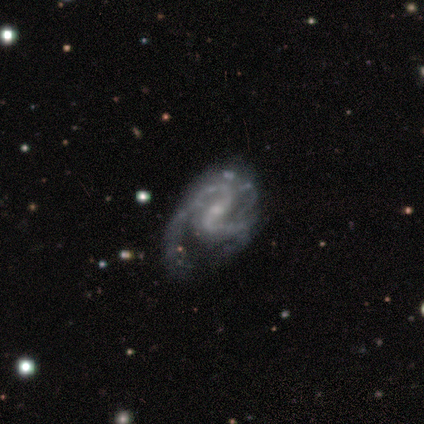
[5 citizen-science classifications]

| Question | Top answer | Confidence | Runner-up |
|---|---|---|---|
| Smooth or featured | featured or disk | 80% | smooth (20%) |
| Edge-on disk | no | 100% | — |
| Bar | strong | 50% | weak (25%) |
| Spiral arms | yes | 100% | — |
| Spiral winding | medium | 75% | loose (25%) |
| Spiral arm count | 2 | 75% | can't tell (25%) |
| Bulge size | small | 75% | moderate (25%) |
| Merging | minor disturbance | 40% | tied: major disturbance (40%) |